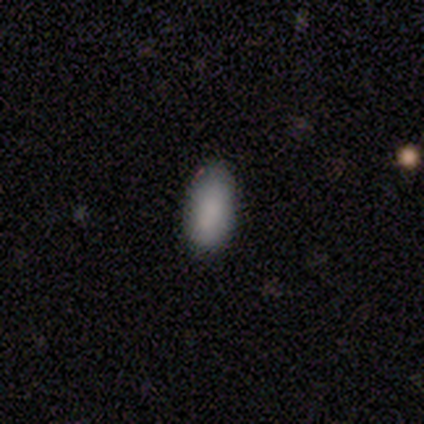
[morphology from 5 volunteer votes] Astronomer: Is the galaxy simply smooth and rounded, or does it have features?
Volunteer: smooth — 100%.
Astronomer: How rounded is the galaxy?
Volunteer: in between — 80%.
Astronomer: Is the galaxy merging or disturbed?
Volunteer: none — 80%.